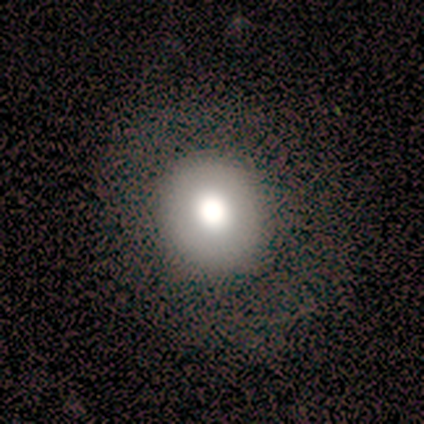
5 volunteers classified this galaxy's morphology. Volunteers were most divided on "smooth or featured" (2-way tie): smooth: 40%, featured or disk: 40%, star or artifact: 20%. More confident: how rounded — round (100%); merging — none (100%).